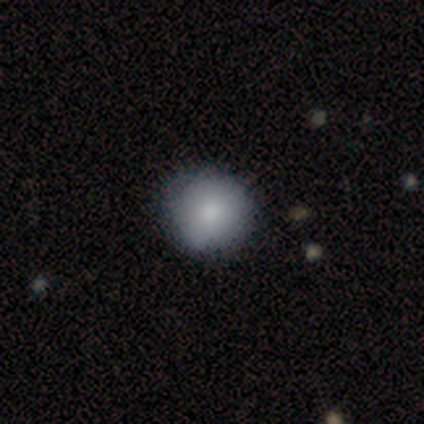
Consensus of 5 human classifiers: smooth_or_featured: smooth (p=1.00)
how_rounded: round (p=0.80) [alt: in between p=0.20]
merging: none (p=0.80) [alt: minor disturbance p=0.20]